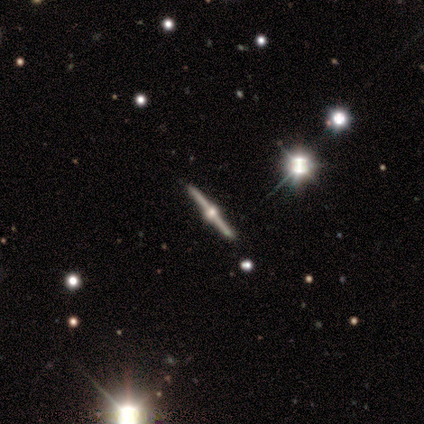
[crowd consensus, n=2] Smooth or featured? featured or disk (100%)
Edge-on disk? yes (100%)
Edge-on bulge? rounded (100%)
Merging? none (100%)